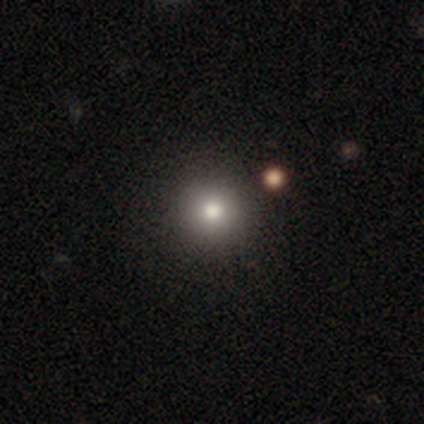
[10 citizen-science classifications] Volunteers were most divided on "merging": none: 78%, minor disturbance: 11%, major disturbance: 11%, merger: 0%. More confident: how rounded — round (100%); smooth or featured — smooth (90%).